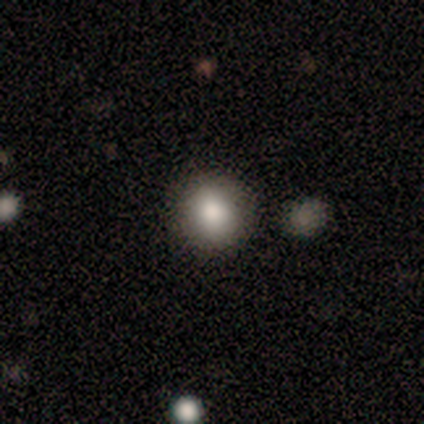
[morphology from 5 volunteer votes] Volunteers were most divided on "merging": none: 80%, minor disturbance: 20%, major disturbance: 0%, merger: 0%. More confident: smooth or featured — smooth (100%); how rounded — round (100%).